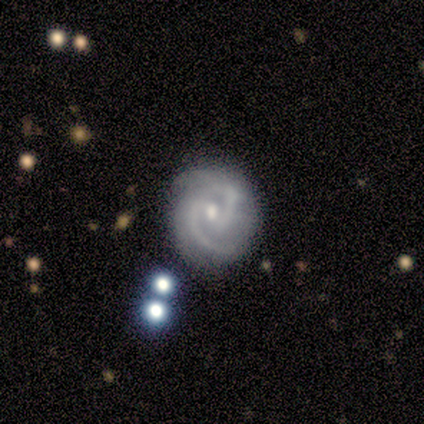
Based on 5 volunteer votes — Volunteers were most divided on "bar": no: 75%, weak: 25%, strong: 0%. More confident: edge-on disk — no (100%); spiral arms — yes (100%); spiral winding — medium (100%); bulge size — small (100%); smooth or featured — featured or disk (80%); spiral arm count — 2 (75%); merging — none (75%).